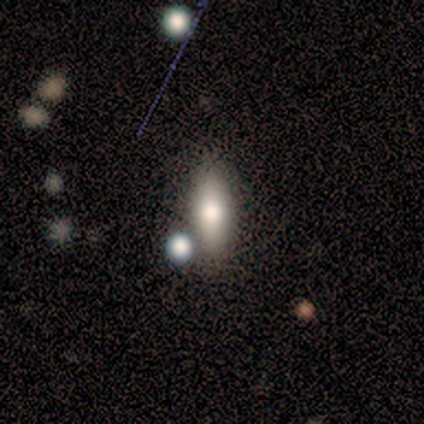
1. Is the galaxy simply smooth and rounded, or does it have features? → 67% smooth, 33% featured or disk, 0% star or artifact.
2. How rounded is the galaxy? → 100% in between, 0% round, 0% cigar-shaped.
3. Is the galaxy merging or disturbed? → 33% none (tied), 33% minor disturbance (tied), 33% major disturbance (tied), 0% merger.